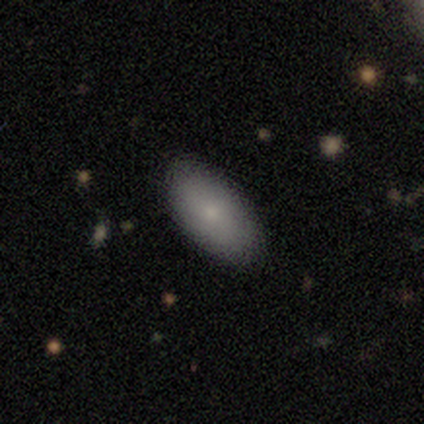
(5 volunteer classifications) This is clearly a smooth galaxy (100%). How rounded: clearly in between (80%). Merging: clearly none (100%).